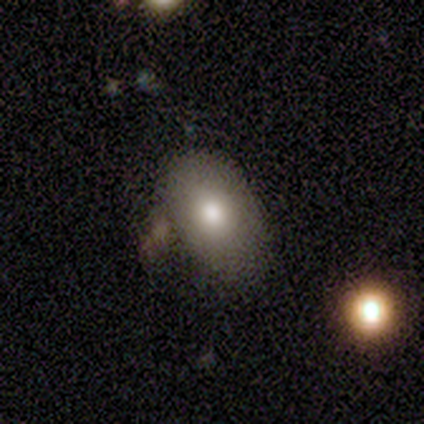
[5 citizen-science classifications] This appears to be a smooth galaxy with no disk features (100%) that is in between round and cigar-shaped (100%). Merging: none (80%).